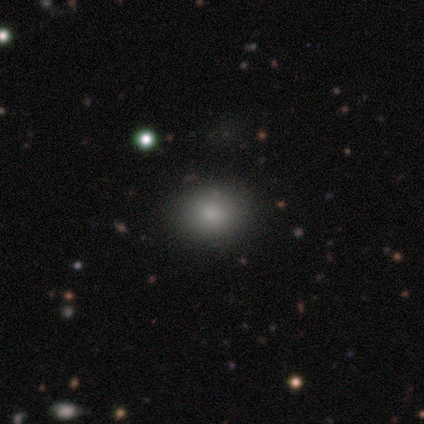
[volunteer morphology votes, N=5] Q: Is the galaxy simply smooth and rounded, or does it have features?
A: smooth — 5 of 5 (100%).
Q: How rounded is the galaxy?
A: round — 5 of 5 (100%).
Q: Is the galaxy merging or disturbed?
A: none — 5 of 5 (100%).